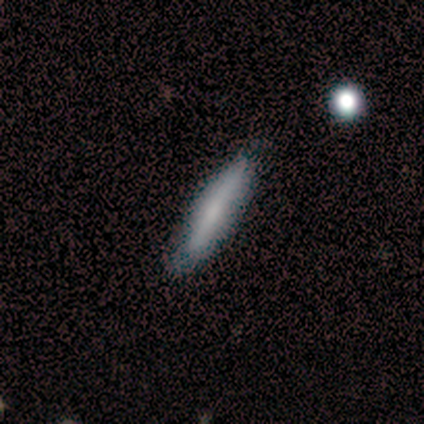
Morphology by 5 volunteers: A smooth galaxy with no disk features (100%) that is cigar-shaped (100%).

Vote fractions:
- Smooth or featured? smooth: 100% / featured or disk: 0% / star or artifact: 0%
- How rounded? cigar-shaped: 100% / round: 0% / in between: 0%
- Merging? none: 60% / minor disturbance: 40% / major disturbance: 0% / merger: 0%